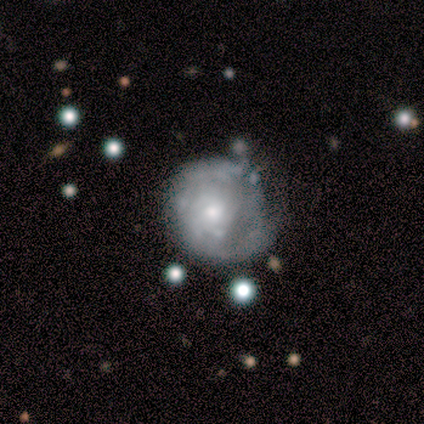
This appears to be a featured or disk galaxy (100%) with no bar (60%), 1 (33%, tied with 2 and 3) tight (100%) spiral arms (60%) and a moderate central bulge (60%). Merging: none (80%).